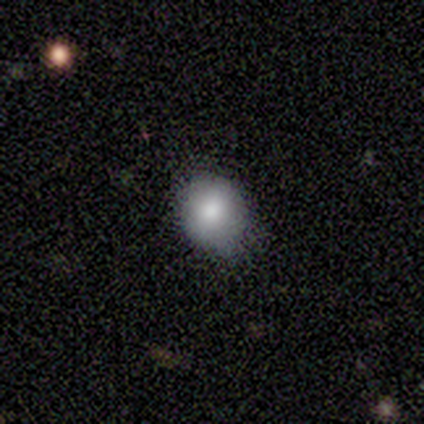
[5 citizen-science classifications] Smooth or featured? 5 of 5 (100%) said smooth. How rounded? 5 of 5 (100%) said round. Merging? 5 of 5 (100%) said none.